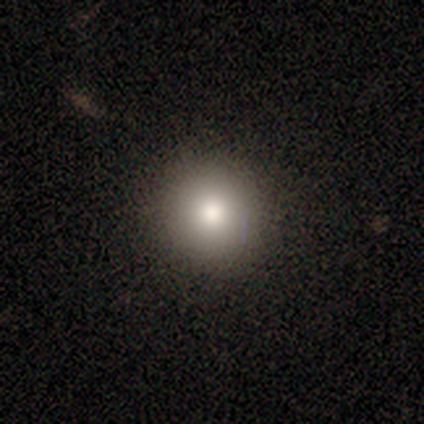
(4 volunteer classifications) Smooth or featured? smooth (75%)
How rounded? round (100%)
Merging? none (100%)